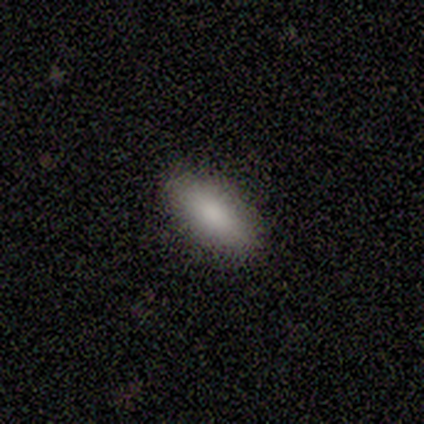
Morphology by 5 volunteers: type=smooth (100%); roundness=in between (80%); merging=none (80%).